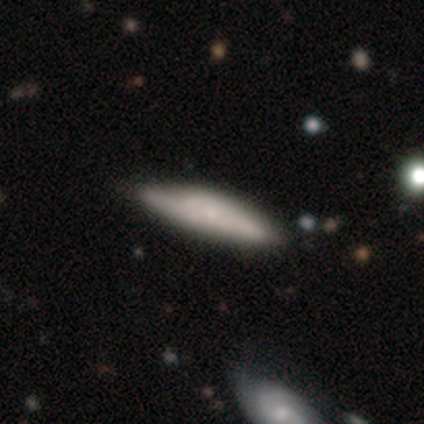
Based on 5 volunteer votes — A smooth galaxy with no disk features (60%) that is cigar-shaped (100%).

Vote fractions:
- Smooth or featured? smooth: 60% / featured or disk: 20% / star or artifact: 20%
- How rounded? cigar-shaped: 100% / round: 0% / in between: 0%
- Merging? minor disturbance: 75% / none: 25% / major disturbance: 0% / merger: 0%